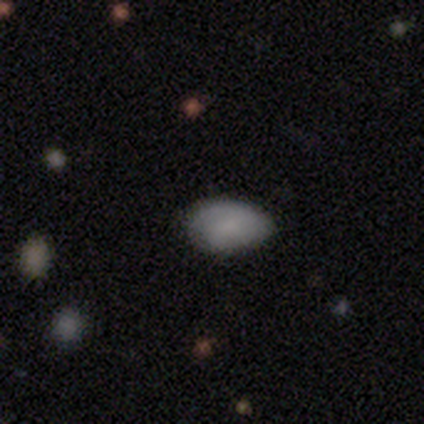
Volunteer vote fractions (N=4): This is clearly a smooth galaxy (100%). How rounded: clearly in between (100%). Merging: likely none (75%).